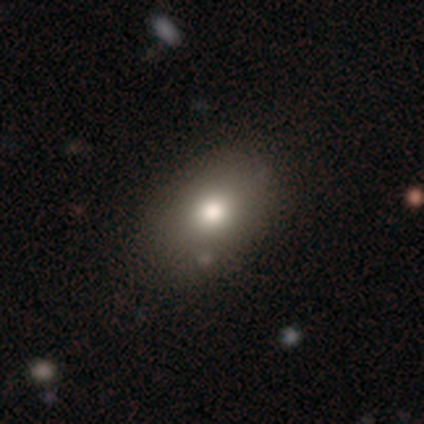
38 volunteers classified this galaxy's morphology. Smooth or featured?
  - smooth: 68% *
  - featured or disk: 24%
  - star or artifact: 8%
How rounded?
  - in between: 81% *
  - round: 19%
  - cigar-shaped: 0%
Merging?
  - none: 91% *
  - minor disturbance: 3%
  - major disturbance: 3%
  - merger: 3%